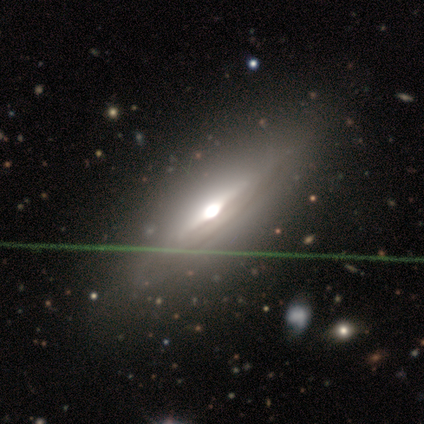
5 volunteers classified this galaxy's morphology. Smooth or featured?
  - featured or disk: 100% *
  - smooth: 0%
  - star or artifact: 0%
Edge-on disk?
  - yes: 80% *
  - no: 20%
Edge-on bulge?
  - rounded: 100% *
  - boxy: 0%
  - none: 0%
Merging?
  - none: 80% *
  - minor disturbance: 20%
  - major disturbance: 0%
  - merger: 0%